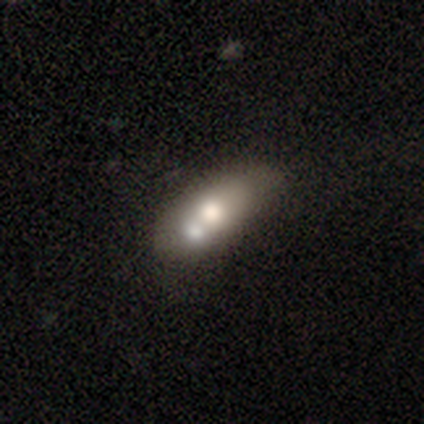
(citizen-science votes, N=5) Volunteers were most divided on "smooth or featured": smooth: 60%, featured or disk: 40%, star or artifact: 0%. More confident: merging — merger (80%); how rounded — cigar-shaped (67%).